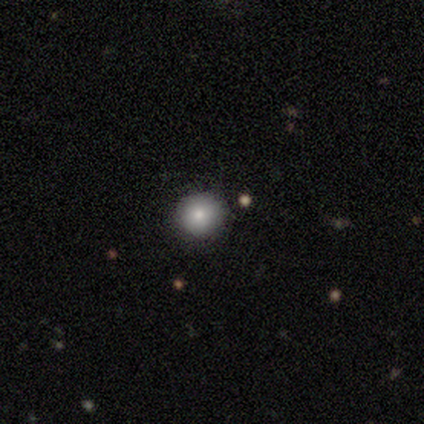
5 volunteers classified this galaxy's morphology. This appears to be a smooth galaxy with no disk features (40%, tied with featured or disk) that is round (100%). Merging: none (100%).